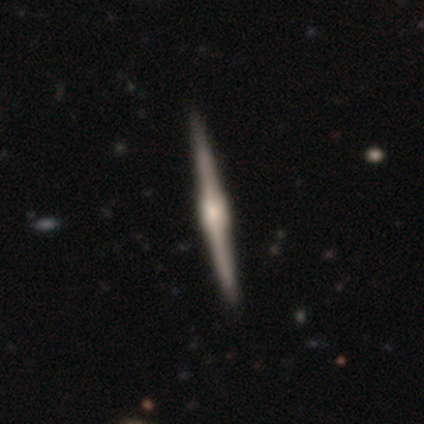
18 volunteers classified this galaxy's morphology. smooth_or_featured: featured or disk (p=0.78) [alt: star or artifact p=0.22]
disk_edge_on: yes (p=1.00)
edge_on_bulge: rounded (p=0.64) [alt: boxy p=0.36]
merging: none (p=0.93) [alt: minor disturbance p=0.07]